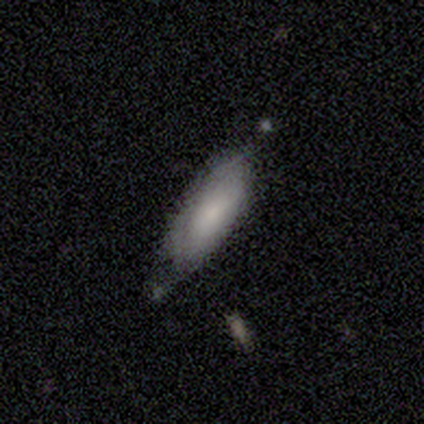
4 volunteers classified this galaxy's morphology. Overall: smooth (50%, tied with featured or disk). How rounded: in between (100%). Merging: none (50%, tied with minor disturbance).